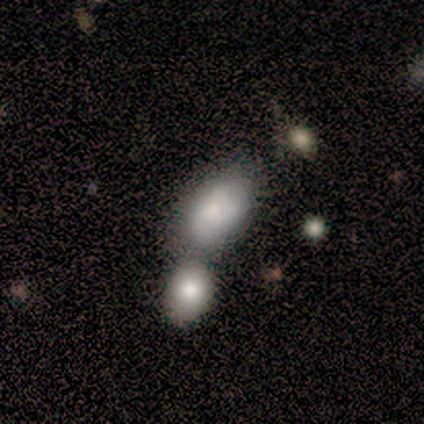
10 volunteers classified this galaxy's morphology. This appears to be a smooth galaxy with no disk features (90%) that is in between round and cigar-shaped (100%). Merging: merger (50%).